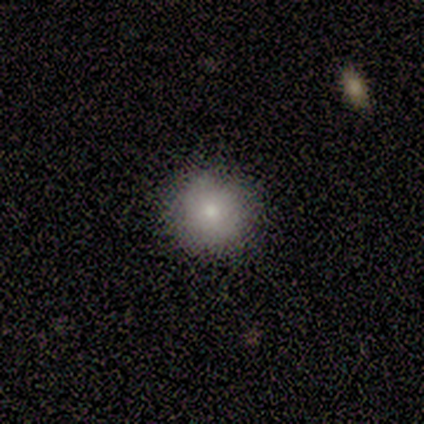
Q: Smooth or featured?
A: smooth (80%); runner-up: star or artifact (20%)
Q: How rounded?
A: round (100%)
Q: Merging?
A: none (100%)